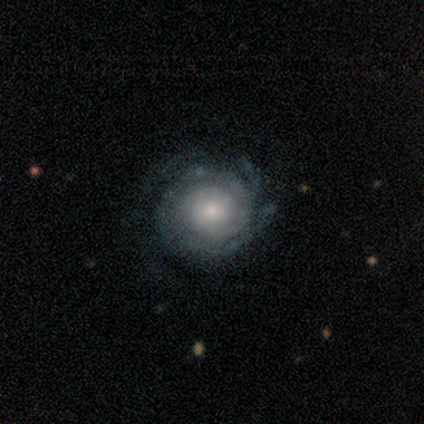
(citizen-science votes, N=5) Q: Smooth or featured?
A: featured or disk (80%); runner-up: smooth (20%)
Q: Edge-on disk?
A: no (100%)
Q: Bar?
A: no (100%)
Q: Spiral arms?
A: yes (100%)
Q: Spiral winding?
A: tight (100%)
Q: Spiral arm count?
A: 3 (50%); tied with: can't tell (50%)
Q: Bulge size?
A: moderate (50%); tied with: small (50%)
Q: Merging?
A: none (80%); runner-up: minor disturbance (20%)